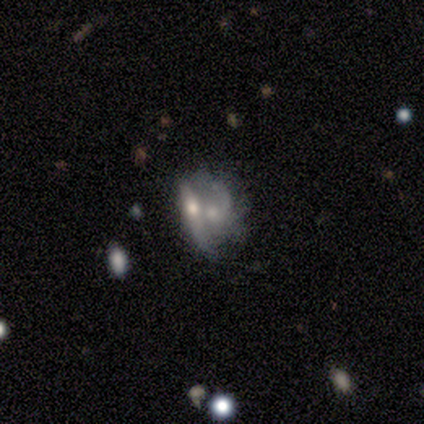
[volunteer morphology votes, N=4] This appears to be a featured or disk galaxy (100%) with no bar (67%), tight (50%, tied with loose) spiral arms (67%) and a moderate central bulge (33%, tied with small and none). Merging: merger (75%).